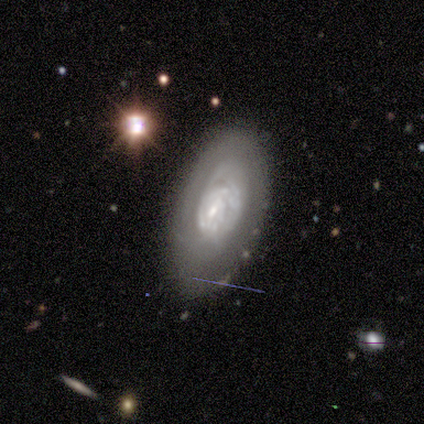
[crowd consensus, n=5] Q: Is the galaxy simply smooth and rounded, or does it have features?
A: featured or disk — 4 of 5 (80%).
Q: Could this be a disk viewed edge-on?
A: no — 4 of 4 (100%).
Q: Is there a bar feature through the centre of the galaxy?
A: weak — 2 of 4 (50%, tied with no).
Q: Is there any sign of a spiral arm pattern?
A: yes — 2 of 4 (50%, tied with no).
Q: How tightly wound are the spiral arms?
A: tight — 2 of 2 (100%).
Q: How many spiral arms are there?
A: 2 — 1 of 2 (50%, tied with can't tell).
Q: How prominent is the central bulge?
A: small — 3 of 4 (75%).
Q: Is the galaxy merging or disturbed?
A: none — 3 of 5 (60%).